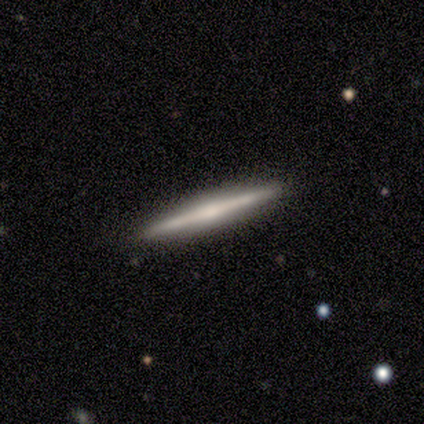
smooth-or-featured: featured or disk: 78% | smooth: 14% | star or artifact: 8%
  disk-edge-on: yes: 96% | no: 4%
    edge-on-bulge: rounded: 67% | boxy: 19% | none: 15%
  merging: none: 88% | minor disturbance: 9% | merger: 3% | major disturbance: 0%